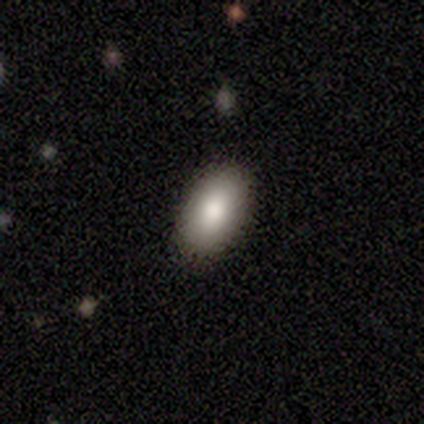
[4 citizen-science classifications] smooth-or-featured: smooth: 100% | featured or disk: 0% | star or artifact: 0%
  how-rounded: in between: 100% | round: 0% | cigar-shaped: 0%
  merging: none: 100% | minor disturbance: 0% | major disturbance: 0% | merger: 0%